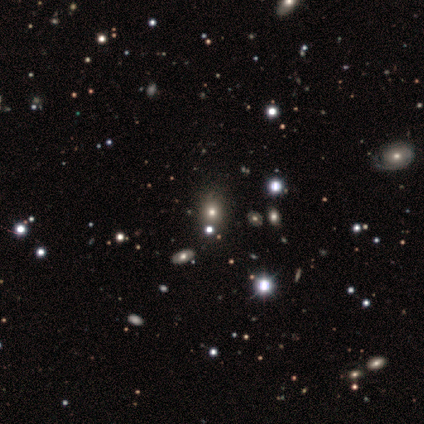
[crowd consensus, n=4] This is likely a star or artifact rather than a galaxy (75%).